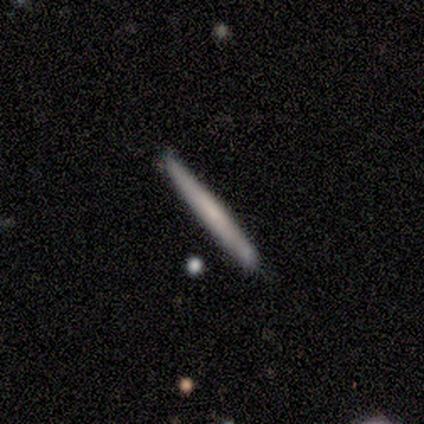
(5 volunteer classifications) This is clearly a smooth galaxy (80%). How rounded: clearly cigar-shaped (100%). Merging: likely none (75%).